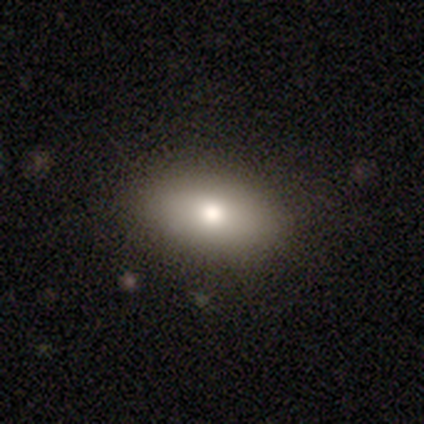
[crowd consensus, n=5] A smooth galaxy with no disk features (100%) that is in between round and cigar-shaped (100%). Merging: none (100%).